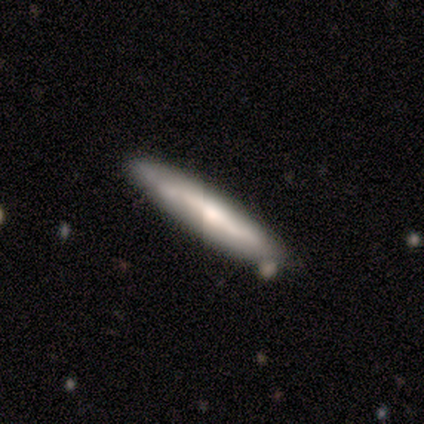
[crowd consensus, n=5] Smooth or featured? 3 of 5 (60%) said featured or disk. Edge-on disk? 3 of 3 (100%) said yes. Edge-on bulge? 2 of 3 (67%) said rounded. Merging? 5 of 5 (100%) said none.